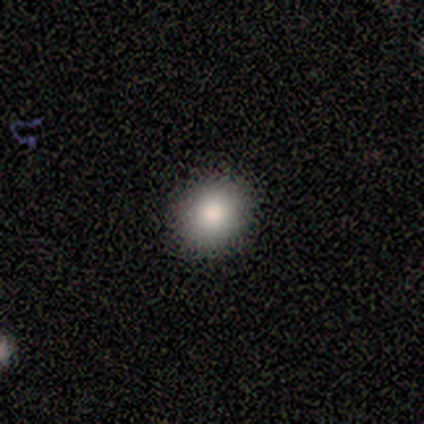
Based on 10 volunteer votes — Smooth or featured?
  - smooth: 90% *
  - featured or disk: 10%
  - star or artifact: 0%
How rounded?
  - round: 78% *
  - in between: 22%
  - cigar-shaped: 0%
Merging?
  - none: 100% *
  - minor disturbance: 0%
  - major disturbance: 0%
  - merger: 0%